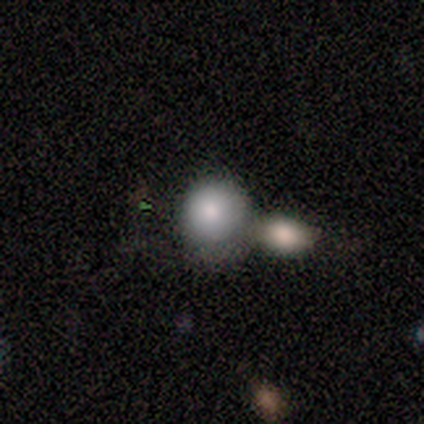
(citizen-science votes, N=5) A smooth galaxy with no disk features (40%, tied with star or artifact) that is round (100%).

Vote fractions:
- Smooth or featured? smooth: 40% (tied) / star or artifact: 40% (tied) / featured or disk: 20%
- How rounded? round: 100% / in between: 0% / cigar-shaped: 0%
- Merging? merger: 67% / none: 33% / minor disturbance: 0% / major disturbance: 0%